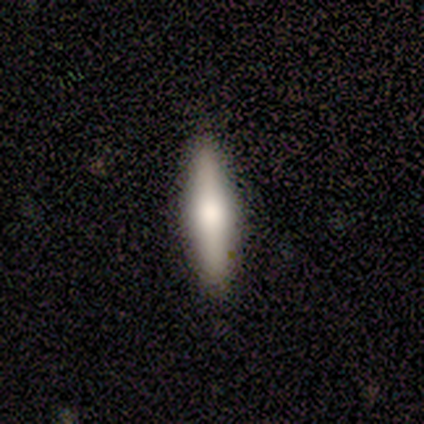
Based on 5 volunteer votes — A featured or disk galaxy (60%) viewed edge-on (100%) with a rounded central bulge (100%). Merging: none (100%).